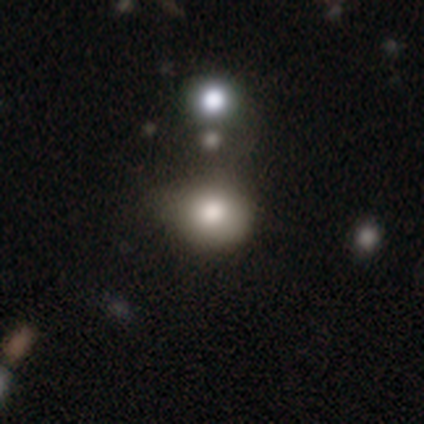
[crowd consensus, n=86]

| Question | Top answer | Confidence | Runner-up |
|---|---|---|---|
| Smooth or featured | smooth | 70% | star or artifact (17%) |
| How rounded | round | 82% | in between (18%) |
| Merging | none | 52% | minor disturbance (35%) |